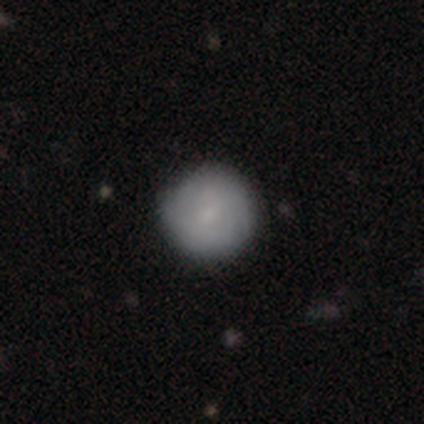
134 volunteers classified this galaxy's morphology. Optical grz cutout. It shows a smooth galaxy with no disk features (57%) that is round (97%). Merging: none (85%).